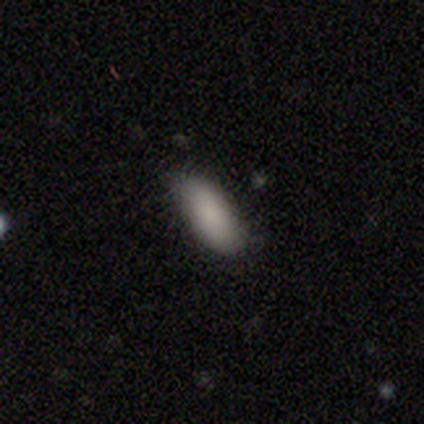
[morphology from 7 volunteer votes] Volunteers were most divided on "merging": minor disturbance: 71%, none: 14%, major disturbance: 14%, merger: 0%. More confident: smooth or featured — smooth (86%); how rounded — in between (83%).